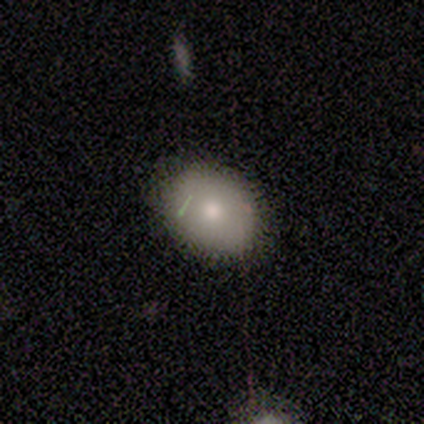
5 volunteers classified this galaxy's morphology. Volunteers were most divided on "how rounded": in between: 75%, round: 25%, cigar-shaped: 0%. More confident: merging — none (100%); smooth or featured — smooth (80%).